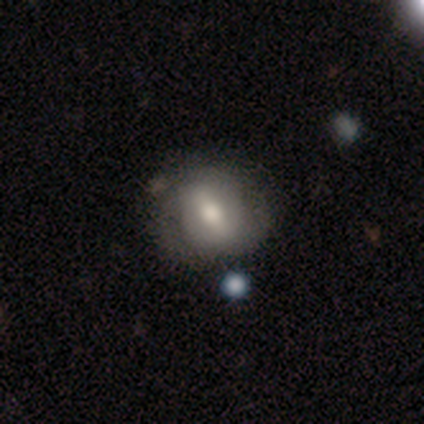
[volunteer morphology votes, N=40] Q: Smooth or featured?
A: featured or disk (60%); runner-up: smooth (38%)
Q: Edge-on disk?
A: no (100%)
Q: Bar?
A: strong (58%); runner-up: weak (29%)
Q: Spiral arms?
A: yes (67%); runner-up: no (33%)
Q: Spiral winding?
A: tight (38%); tied with: loose (38%)
Q: Spiral arm count?
A: 2 (62%); runner-up: can't tell (38%)
Q: Bulge size?
A: moderate (79%); runner-up: large (17%)
Q: Merging?
A: none (56%); runner-up: minor disturbance (15%)